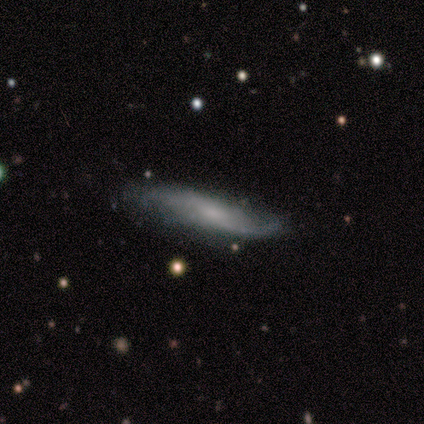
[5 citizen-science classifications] Volunteers were most divided on "edge-on disk": yes: 60%, no: 40%. More confident: smooth or featured — featured or disk (100%); merging — none (80%); edge-on bulge — boxy (67%).